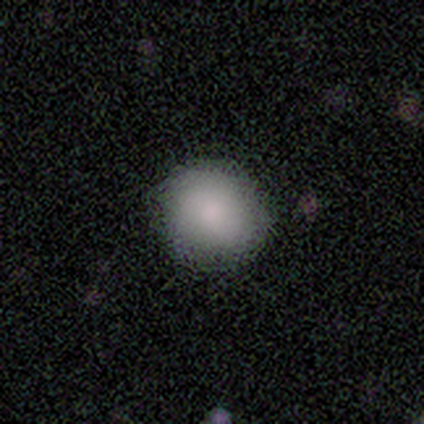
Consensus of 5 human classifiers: Q: Smooth or featured?
A: smooth (80%); runner-up: featured or disk (20%)
Q: How rounded?
A: round (100%)
Q: Merging?
A: none (100%)